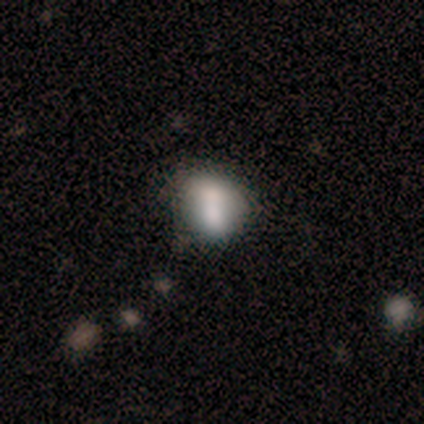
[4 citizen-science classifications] Volunteers were most divided on "how rounded": in between: 67%, round: 33%, cigar-shaped: 0%. More confident: smooth or featured — smooth (75%); merging — none (75%).